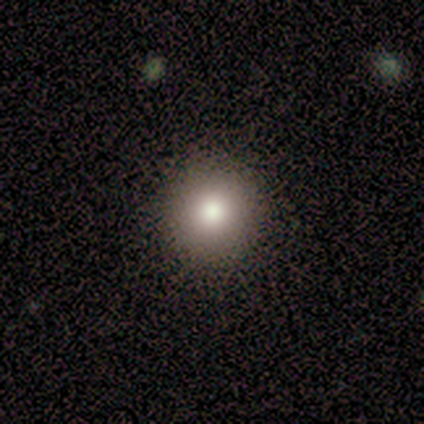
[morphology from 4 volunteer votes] Smooth or featured?
  - featured or disk: 50% *
  - smooth: 25%
  - star or artifact: 25%
Edge-on disk?
  - no: 100% *
  - yes: 0%
Bar?
  - no: 100% *
  - strong: 0%
  - weak: 0%
Spiral arms?
  - no: 100% *
  - yes: 0%
Bulge size?
  - large: 100% *
  - dominant: 0%
  - moderate: 0%
  - small: 0%
  - none: 0%
Merging?
  - none: 67% *
  - minor disturbance: 33%
  - major disturbance: 0%
  - merger: 0%